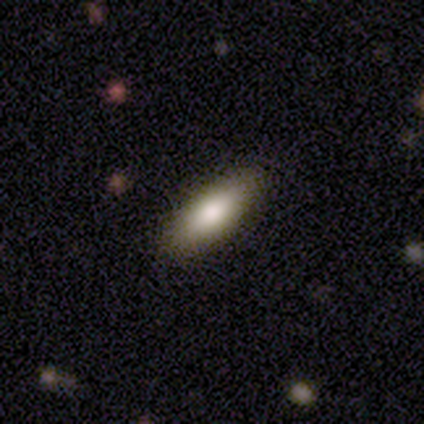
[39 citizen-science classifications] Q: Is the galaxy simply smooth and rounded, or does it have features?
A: smooth — 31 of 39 (79%).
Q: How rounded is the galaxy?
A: in between — 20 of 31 (65%).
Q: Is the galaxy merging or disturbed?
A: none — 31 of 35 (89%).